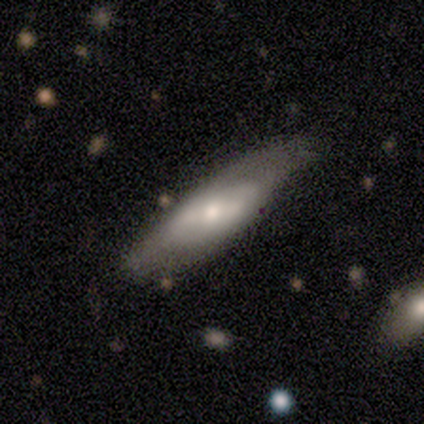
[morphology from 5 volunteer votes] smooth_or_featured: featured or disk (p=0.60) [alt: smooth p=0.40]
disk_edge_on: no (p=1.00)
bar: strong (p=0.33) [tied with: weak p=0.33, no p=0.33]
has_spiral_arms: yes (p=0.67) [alt: no p=0.33]
spiral_winding: loose (p=1.00)
spiral_arm_count: 2 (p=1.00)
bulge_size: moderate (p=0.67) [alt: small p=0.33]
merging: none (p=0.80) [alt: minor disturbance p=0.20]